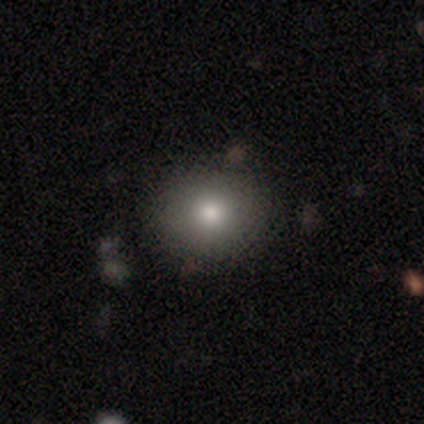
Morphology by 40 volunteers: smooth_or_featured: smooth (p=0.80) [alt: star or artifact p=0.15]
how_rounded: round (p=0.72) [alt: in between p=0.28]
merging: none (p=0.94) [alt: minor disturbance p=0.03]